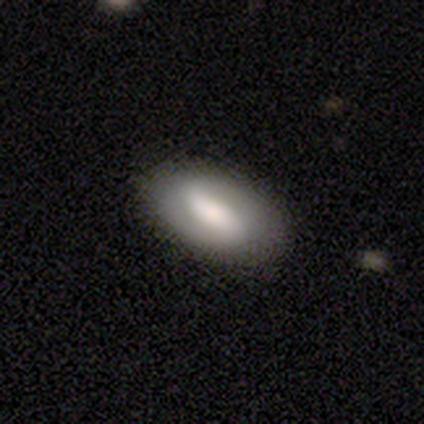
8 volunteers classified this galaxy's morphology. Q: Smooth or featured?
A: smooth (62%); runner-up: featured or disk (38%)
Q: How rounded?
A: in between (100%)
Q: Merging?
A: none (88%); runner-up: minor disturbance (12%)